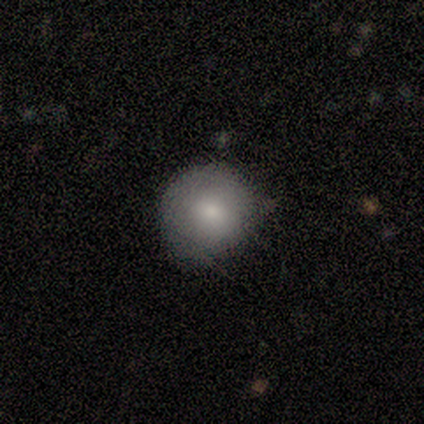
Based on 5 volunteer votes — A smooth galaxy with no disk features (100%) that is round (100%).

Vote fractions:
- Smooth or featured? smooth: 100% / featured or disk: 0% / star or artifact: 0%
- How rounded? round: 100% / in between: 0% / cigar-shaped: 0%
- Merging? none: 80% / minor disturbance: 20% / major disturbance: 0% / merger: 0%